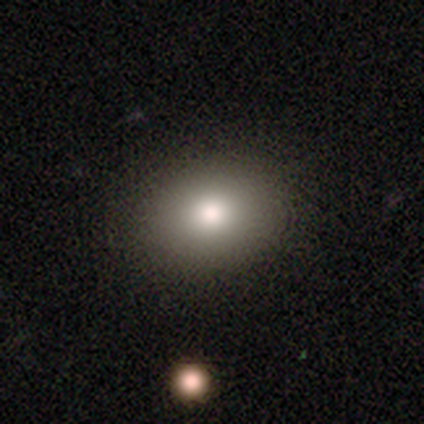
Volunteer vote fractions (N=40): A smooth galaxy with no disk features (90%) that is in between round and cigar-shaped (61%).

Vote fractions:
- Smooth or featured? smooth: 90% / featured or disk: 8% / star or artifact: 2%
- How rounded? in between: 61% / round: 39% / cigar-shaped: 0%
- Merging? none: 59% / merger: 5% / minor disturbance: 3% / major disturbance: 0%